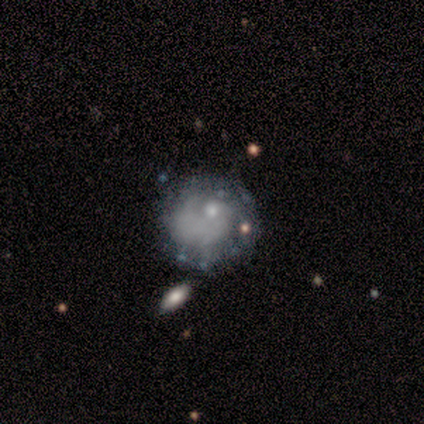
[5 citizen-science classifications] Smooth or featured?
  - featured or disk: 40% * (tied)
  - star or artifact: 40% * (tied)
  - smooth: 20%
Edge-on disk?
  - no: 100% *
  - yes: 0%
Bar?
  - no: 100% *
  - strong: 0%
  - weak: 0%
Spiral arms?
  - no: 100% *
  - yes: 0%
Bulge size?
  - small: 50% * (tied)
  - none: 50% * (tied)
  - dominant: 0%
  - large: 0%
  - moderate: 0%
Merging?
  - minor disturbance: 67% *
  - none: 33%
  - major disturbance: 0%
  - merger: 0%